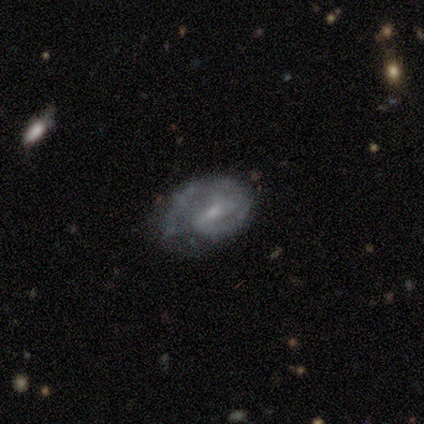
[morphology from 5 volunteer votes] featured or disk 80%, smooth 20%, star or artifact 0%. Down the decision tree: edge-on disk — no (100%); bar — weak (75%); spiral arms — yes (100%); spiral arm count — 2 (50%); spiral winding — medium (100%); bulge size — moderate (50%, tied with small); merging — major disturbance (60%).